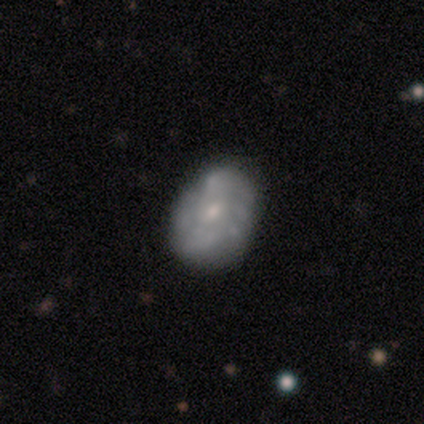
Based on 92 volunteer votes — Volunteers were most divided on "spiral arms": no: 55%, yes: 45%. More confident: edge-on disk — no (100%); bar — no (74%); merging — none (70%); smooth or featured — featured or disk (67%); bulge size — small (61%).